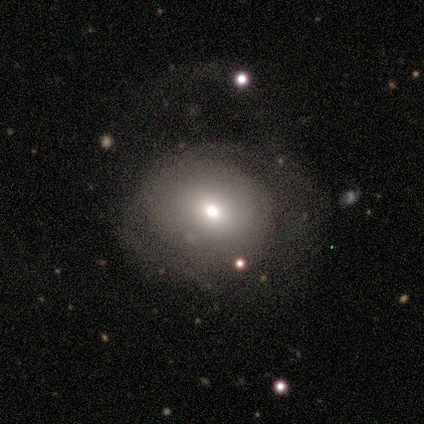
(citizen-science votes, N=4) smooth 50% (tied), featured or disk 50% (tied), star or artifact 0%. Down the decision tree: how rounded — round (100%); merging — major disturbance (50%).